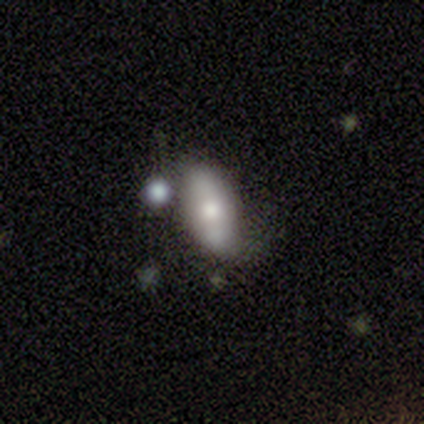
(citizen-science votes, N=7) Overall: star or artifact (43%; smooth 29%).